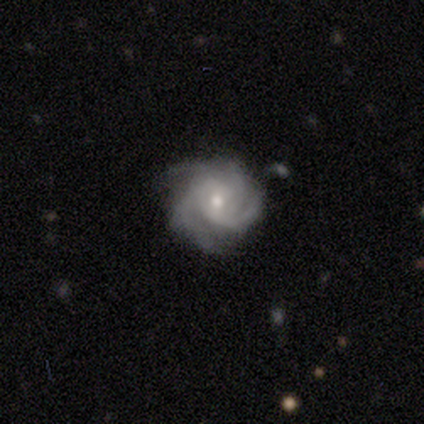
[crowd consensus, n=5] featured or disk 100%, smooth 0%, star or artifact 0%. Down the decision tree: edge-on disk — no (100%); bar — no (100%); spiral arms — yes (100%); spiral arm count — can't tell (40%); spiral winding — medium (60%); bulge size — moderate (60%); merging — none (100%).